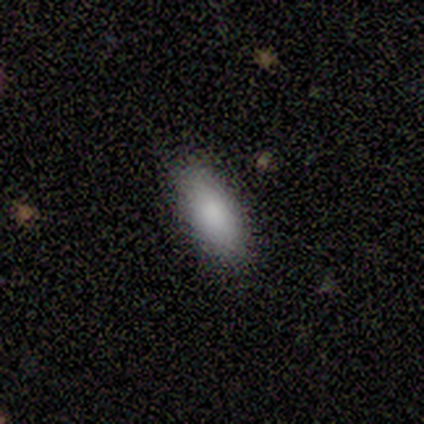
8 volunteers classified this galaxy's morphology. This appears to be a smooth galaxy with no disk features (88%) that is in between round and cigar-shaped (100%). Merging: none (100%).